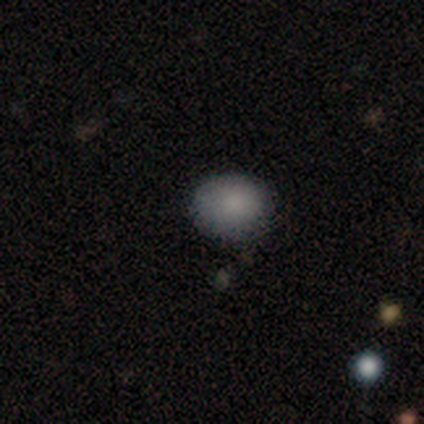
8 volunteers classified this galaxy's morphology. smooth-or-featured: smooth: 75% | featured or disk: 12% | star or artifact: 12%
  how-rounded: in between: 67% | round: 33% | cigar-shaped: 0%
  merging: none: 86% | major disturbance: 14% | minor disturbance: 0% | merger: 0%